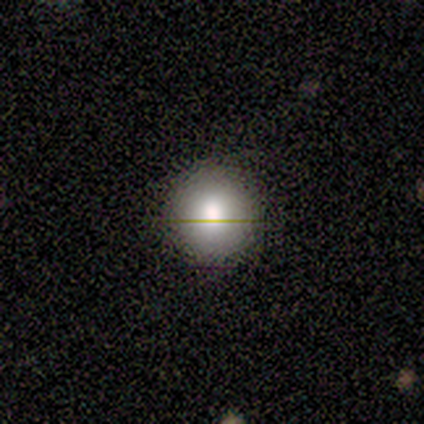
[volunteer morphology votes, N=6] Smooth or featured? 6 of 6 (100%) said smooth. How rounded? 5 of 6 (83%) said round. Merging? 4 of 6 (67%) said none.